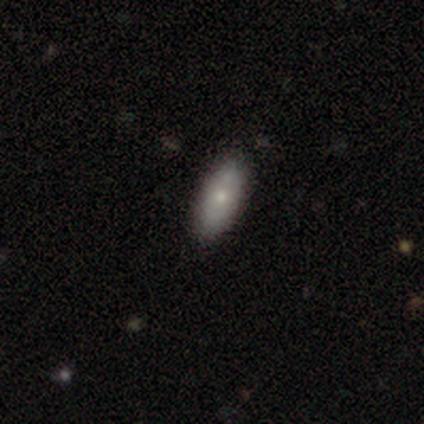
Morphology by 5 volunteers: Smooth or featured: smooth — 80% (featured or disk — 20%)
How rounded: in between — 50% (round — 25%)
Merging: none — 100%